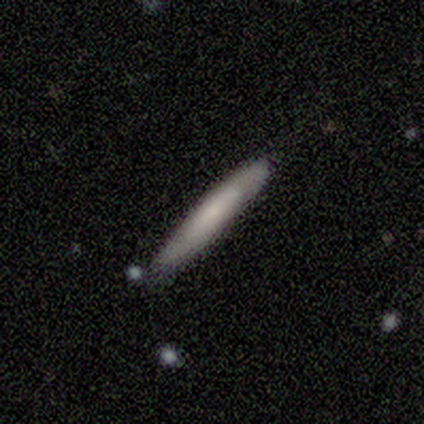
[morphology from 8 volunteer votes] smooth_or_featured: smooth (p=0.75) [alt: featured or disk p=0.25]
how_rounded: cigar-shaped (p=1.00)
merging: none (p=0.62) [alt: minor disturbance p=0.12]